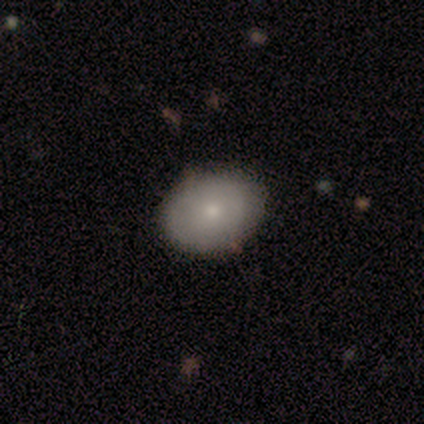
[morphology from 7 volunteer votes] A smooth galaxy with no disk features (43%, tied with featured or disk) that is in between round and cigar-shaped (67%). Merging: none (100%).